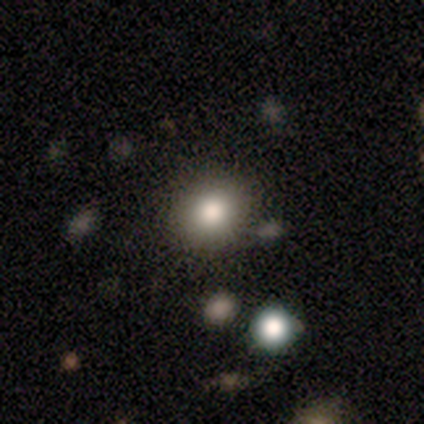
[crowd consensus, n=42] Volunteers were most divided on "smooth or featured": smooth: 67%, star or artifact: 19%, featured or disk: 14%. More confident: merging — none (85%); how rounded — round (79%).